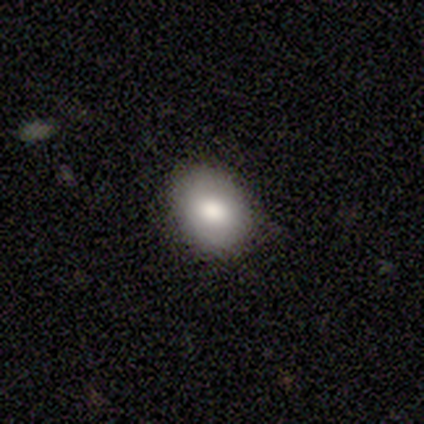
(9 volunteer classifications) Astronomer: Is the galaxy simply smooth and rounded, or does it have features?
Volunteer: smooth — 78%.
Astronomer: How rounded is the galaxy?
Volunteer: in between — 71%.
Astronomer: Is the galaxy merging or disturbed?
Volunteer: none — 62%.